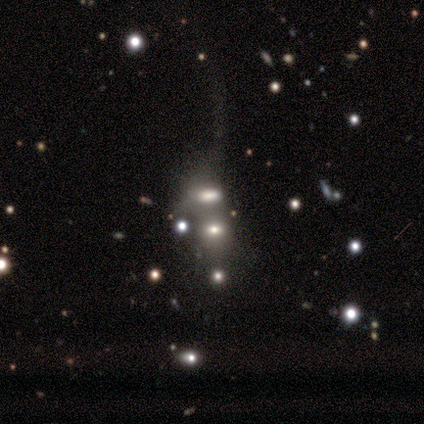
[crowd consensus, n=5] Q: Smooth or featured?
A: featured or disk (60%); runner-up: smooth (20%)
Q: Edge-on disk?
A: no (100%)
Q: Bar?
A: no (100%)
Q: Spiral arms?
A: no (100%)
Q: Bulge size?
A: small (67%); runner-up: large (33%)
Q: Merging?
A: none (50%); tied with: merger (50%)